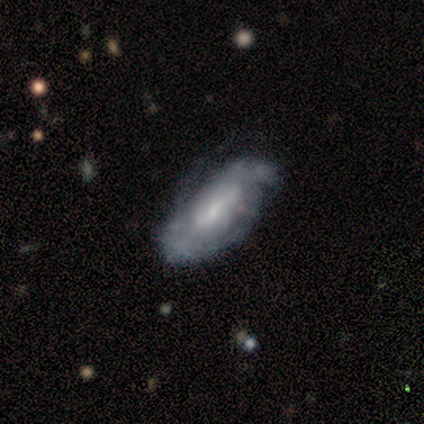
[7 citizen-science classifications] Smooth or featured?
  - featured or disk: 86% *
  - smooth: 14%
  - star or artifact: 0%
Edge-on disk?
  - no: 100% *
  - yes: 0%
Bar?
  - weak: 50% *
  - no: 33%
  - strong: 17%
Spiral arms?
  - yes: 83% *
  - no: 17%
Spiral winding?
  - tight: 60% *
  - medium: 20%
  - loose: 20%
Spiral arm count?
  - can't tell: 60% *
  - 2: 20%
  - 3: 20%
  - 1: 0%
  - 4: 0%
  - more than 4: 0%
Bulge size?
  - moderate: 50% * (tied)
  - small: 50% * (tied)
  - dominant: 0%
  - large: 0%
  - none: 0%
Merging?
  - major disturbance: 43% *
  - none: 29%
  - minor disturbance: 29%
  - merger: 0%